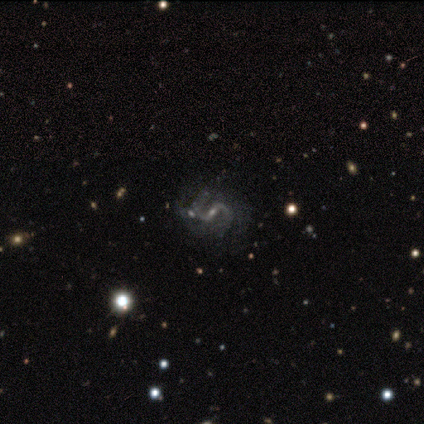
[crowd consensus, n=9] Q: Smooth or featured?
A: featured or disk (100%)
Q: Edge-on disk?
A: no (100%)
Q: Bar?
A: weak (56%); runner-up: strong (44%)
Q: Spiral arms?
A: yes (100%)
Q: Spiral winding?
A: loose (67%); runner-up: medium (33%)
Q: Spiral arm count?
A: 2 (89%); runner-up: 4 (11%)
Q: Bulge size?
A: small (78%); runner-up: moderate (22%)
Q: Merging?
A: none (67%); runner-up: major disturbance (22%)